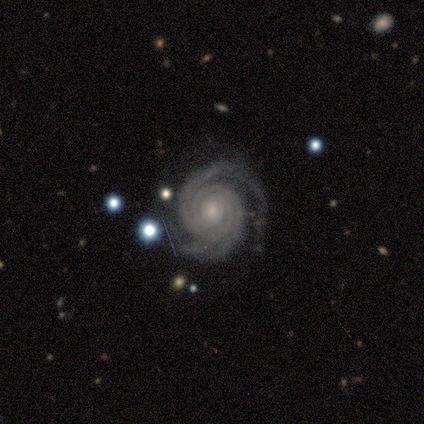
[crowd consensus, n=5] featured or disk 80%, smooth 20%, star or artifact 0%. Down the decision tree: edge-on disk — no (100%); bar — no (100%); spiral arms — yes (100%); spiral arm count — 2 (75%); spiral winding — tight (100%); bulge size — moderate (75%); merging — none (80%).